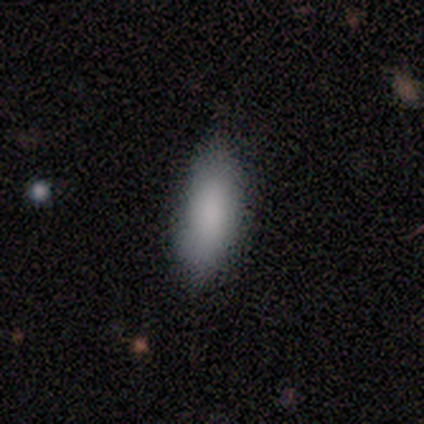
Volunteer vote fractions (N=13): Smooth or featured: smooth — 100%
How rounded: in between — 77% (cigar-shaped — 23%)
Merging: none — 85% (minor disturbance — 15%)